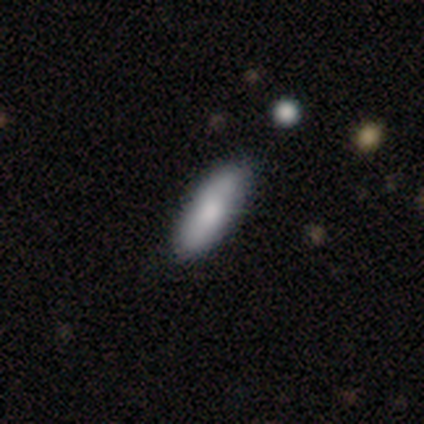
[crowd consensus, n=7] Smooth or featured?
  - smooth: 71% *
  - featured or disk: 29%
  - star or artifact: 0%
How rounded?
  - cigar-shaped: 60% *
  - in between: 40%
  - round: 0%
Merging?
  - none: 86% *
  - minor disturbance: 14%
  - major disturbance: 0%
  - merger: 0%